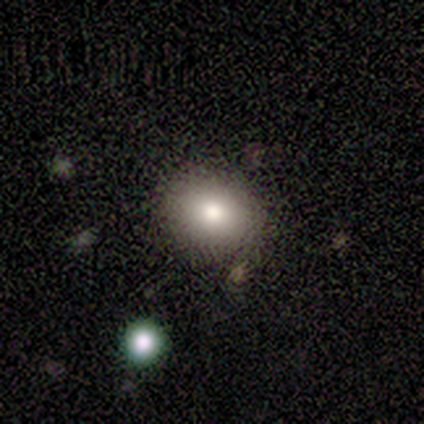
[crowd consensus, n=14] Smooth or featured?
  - smooth: 79% *
  - star or artifact: 14%
  - featured or disk: 7%
How rounded?
  - in between: 55% *
  - round: 45%
  - cigar-shaped: 0%
Merging?
  - none: 83% *
  - minor disturbance: 8%
  - merger: 8%
  - major disturbance: 0%